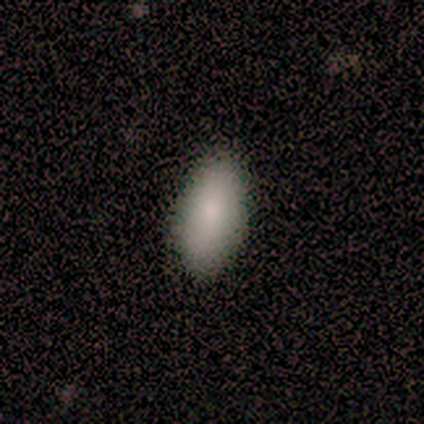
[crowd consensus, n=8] Overall: smooth (75%). How rounded: in between (100%). Merging: none (100%).